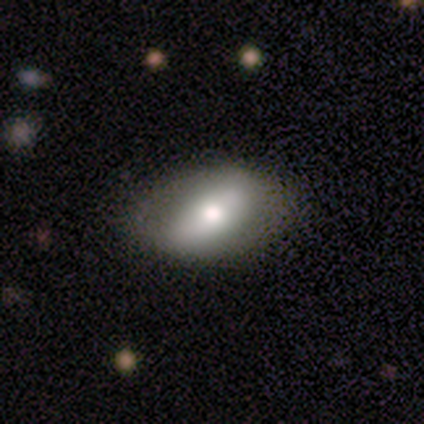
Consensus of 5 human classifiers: Smooth or featured?
  - smooth: 60% *
  - featured or disk: 40%
  - star or artifact: 0%
How rounded?
  - in between: 100% *
  - round: 0%
  - cigar-shaped: 0%
Merging?
  - none: 100% *
  - minor disturbance: 0%
  - major disturbance: 0%
  - merger: 0%